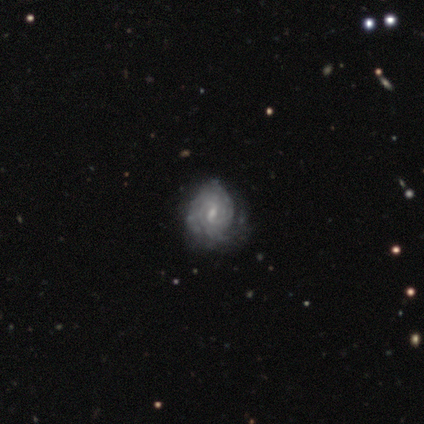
smooth_or_featured: featured or disk (p=0.87) [alt: smooth p=0.10]
disk_edge_on: no (p=1.00)
bar: weak (p=0.74) [alt: strong p=0.18]
has_spiral_arms: yes (p=0.97) [alt: no p=0.03]
spiral_winding: tight (p=0.76) [alt: medium p=0.18]
spiral_arm_count: can't tell (p=0.58) [alt: 2 p=0.24]
bulge_size: small (p=0.50) [alt: moderate p=0.41]
merging: none (p=0.55) [alt: minor disturbance p=0.24]